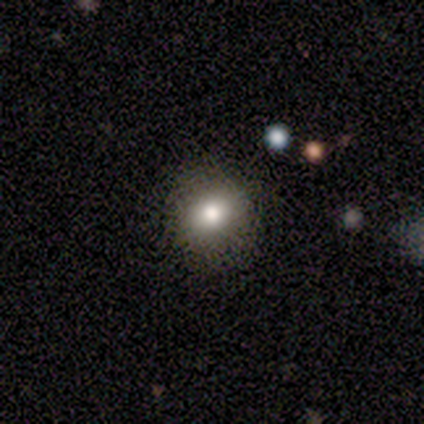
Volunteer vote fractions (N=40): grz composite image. It shows a smooth galaxy with no disk features (78%) that is round (55%). Merging: none (95%).